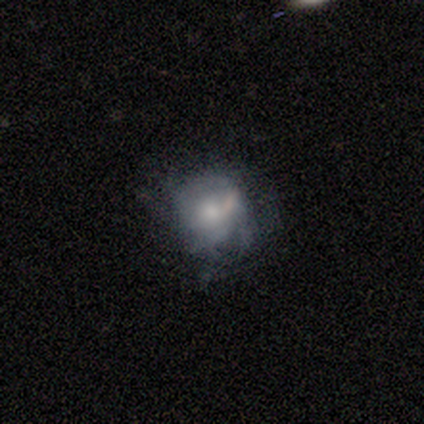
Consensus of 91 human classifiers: A featured or disk galaxy (48%) with no bar (88%), no spiral arms (65%) and a moderate central bulge (42%).

Vote fractions:
- Smooth or featured? featured or disk: 48% / smooth: 44% / star or artifact: 8%
- Edge-on disk? no: 98% / yes: 2%
- Bar? no: 88% / weak: 7% / strong: 5%
- Spiral arms? no: 65% / yes: 35%
- Bulge size? moderate: 42% / small: 40% / large: 14% / dominant: 2% / none: 2%
- Merging? none: 40% / minor disturbance: 27% / major disturbance: 26% / merger: 6%